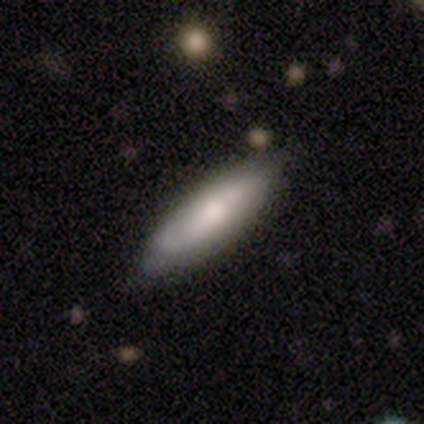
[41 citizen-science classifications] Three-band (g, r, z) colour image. It shows a smooth galaxy with no disk features (63%) that is in between round and cigar-shaped (65%). Merging: none (80%).